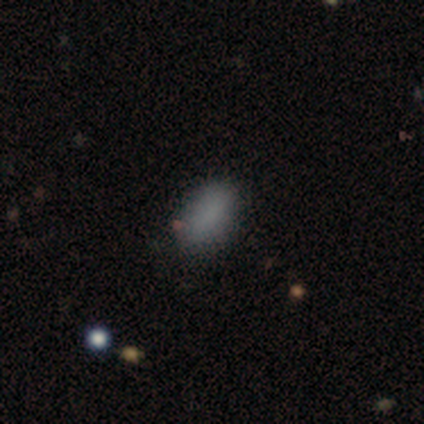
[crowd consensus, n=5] Smooth or featured? smooth (80%)
How rounded? cigar-shaped (50%)
Merging? none (80%)